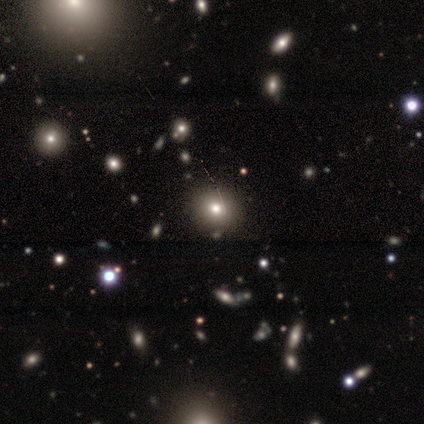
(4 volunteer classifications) A smooth galaxy with no disk features (75%) that is round (67%). Merging: none (67%).